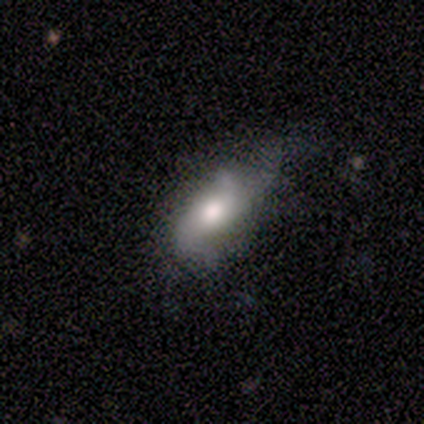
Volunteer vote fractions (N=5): Smooth or featured: smooth — 60% (featured or disk — 40%)
How rounded: in between — 100%
Merging: minor disturbance — 80% (none — 20%)